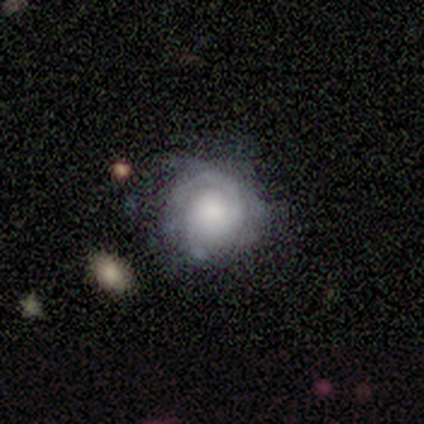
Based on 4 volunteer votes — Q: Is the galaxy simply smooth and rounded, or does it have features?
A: featured or disk — 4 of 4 (100%).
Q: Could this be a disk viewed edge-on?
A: no — 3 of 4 (75%).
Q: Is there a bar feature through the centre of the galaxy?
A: weak — 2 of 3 (67%).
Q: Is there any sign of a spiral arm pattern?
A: yes — 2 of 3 (67%).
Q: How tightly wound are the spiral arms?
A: tight — 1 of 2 (50%, tied with loose).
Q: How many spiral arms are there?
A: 1 — 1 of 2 (50%, tied with 2).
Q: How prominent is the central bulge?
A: moderate — 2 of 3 (67%).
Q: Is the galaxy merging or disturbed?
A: none — 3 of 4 (75%).